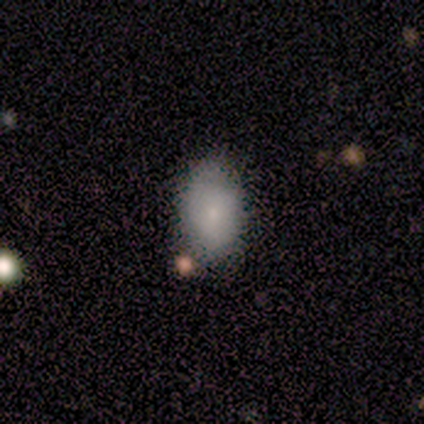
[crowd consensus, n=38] Morphology: type=smooth (87%); roundness=in between (94%); merging=none (72%).